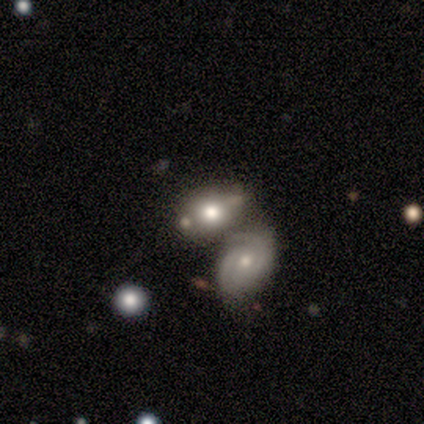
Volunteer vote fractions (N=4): smooth-or-featured: smooth: 50% (tied) | featured or disk: 50% (tied) | star or artifact: 0%
  how-rounded: in between: 100% | round: 0% | cigar-shaped: 0%
  merging: merger: 75% | minor disturbance: 25% | none: 0% | major disturbance: 0%